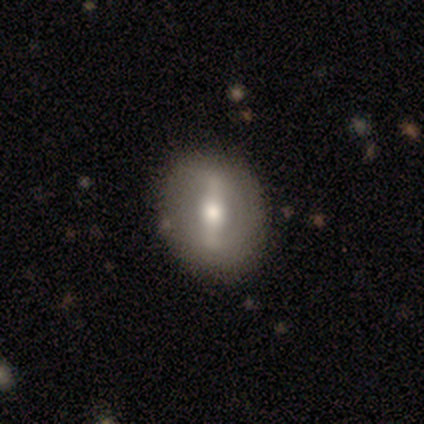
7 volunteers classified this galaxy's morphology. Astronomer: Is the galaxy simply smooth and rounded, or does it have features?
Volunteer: featured or disk — 57% (runner-up: smooth, 43%).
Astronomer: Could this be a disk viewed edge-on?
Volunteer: no — 100%.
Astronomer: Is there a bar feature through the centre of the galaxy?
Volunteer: strong — 75%.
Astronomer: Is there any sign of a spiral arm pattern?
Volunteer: yes — 50%, tied with no at 50%.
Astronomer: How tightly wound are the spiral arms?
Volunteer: medium — 100%.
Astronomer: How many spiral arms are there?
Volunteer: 2 — 100%.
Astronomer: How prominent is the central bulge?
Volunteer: large — 50%, tied with small at 50%.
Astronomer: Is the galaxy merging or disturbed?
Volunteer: none — 86%.